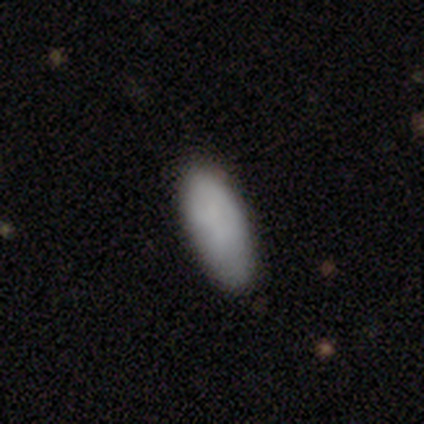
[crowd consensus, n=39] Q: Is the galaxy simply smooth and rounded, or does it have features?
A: smooth — 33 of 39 (85%).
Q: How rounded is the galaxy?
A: in between — 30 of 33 (91%).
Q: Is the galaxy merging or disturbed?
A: none — 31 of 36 (86%).